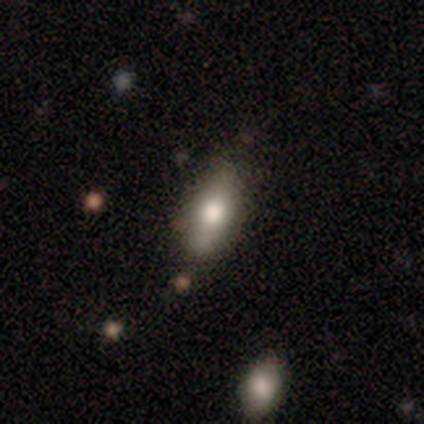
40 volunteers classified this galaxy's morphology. Smooth or featured?
  - smooth: 62% *
  - featured or disk: 32%
  - star or artifact: 5%
How rounded?
  - in between: 84% *
  - cigar-shaped: 16%
  - round: 0%
Merging?
  - none: 82% *
  - minor disturbance: 13%
  - major disturbance: 5%
  - merger: 0%